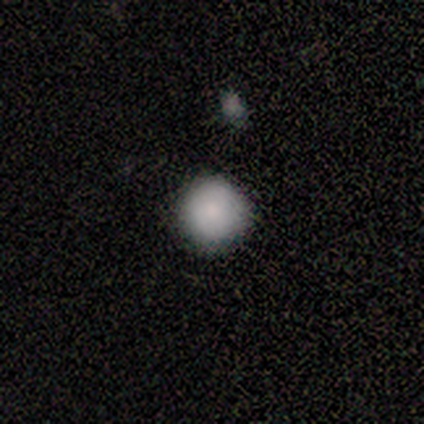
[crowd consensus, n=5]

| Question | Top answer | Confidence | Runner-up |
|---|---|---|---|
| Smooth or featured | smooth | 100% | — |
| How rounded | round | 100% | — |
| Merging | none | 80% | minor disturbance (20%) |